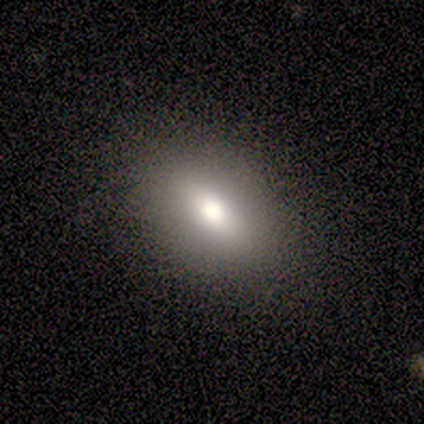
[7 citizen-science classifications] Smooth or featured? 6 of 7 (86%) said smooth. How rounded? 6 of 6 (100%) said in between. Merging? 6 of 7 (86%) said none.